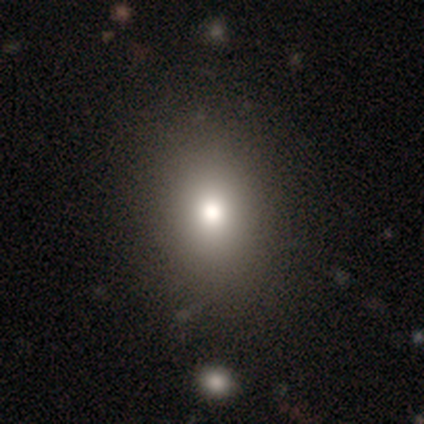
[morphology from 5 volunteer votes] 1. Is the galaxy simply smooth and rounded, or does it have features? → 60% smooth, 40% star or artifact, 0% featured or disk.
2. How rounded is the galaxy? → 100% in between, 0% round, 0% cigar-shaped.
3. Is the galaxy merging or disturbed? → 100% none, 0% minor disturbance, 0% major disturbance, 0% merger.